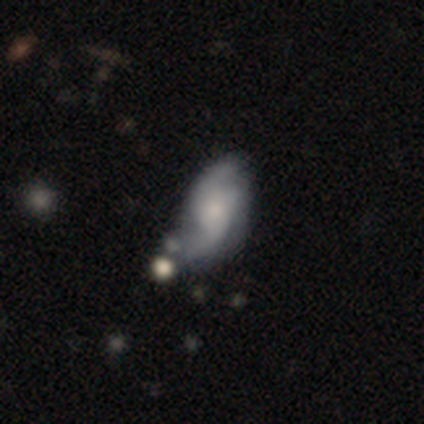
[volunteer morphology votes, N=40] Volunteers were most divided on "bar" (2-way tie): weak: 45%, no: 45%, strong: 10%. Remaining: spiral arms — yes (97%); edge-on disk — no (94%); smooth or featured — featured or disk (82%); spiral arm count — 2 (80%); bulge size — small (68%); spiral winding — loose (57%); merging — none (48%).